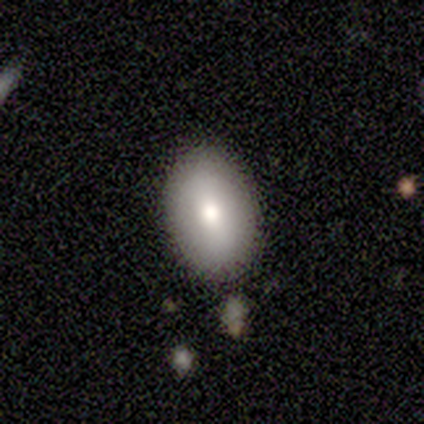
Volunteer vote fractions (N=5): Smooth or featured?
  - smooth: 100% *
  - featured or disk: 0%
  - star or artifact: 0%
How rounded?
  - in between: 80% *
  - round: 20%
  - cigar-shaped: 0%
Merging?
  - none: 60% *
  - minor disturbance: 20%
  - merger: 20%
  - major disturbance: 0%